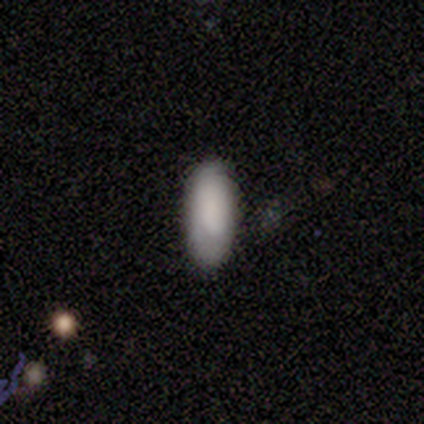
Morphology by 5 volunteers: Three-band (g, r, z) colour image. It shows a smooth galaxy with no disk features (100%) that is in between round and cigar-shaped (80%). Merging: none (100%).